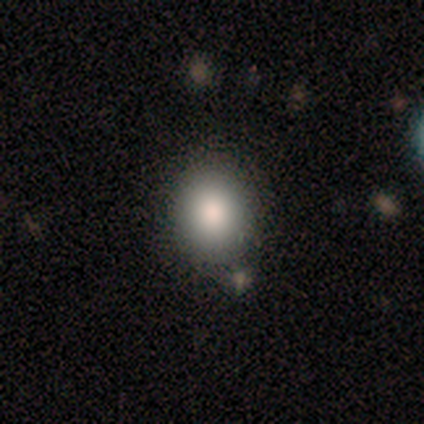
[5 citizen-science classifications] Smooth or featured? smooth (100%)
How rounded? round (60%)
Merging? none (100%)